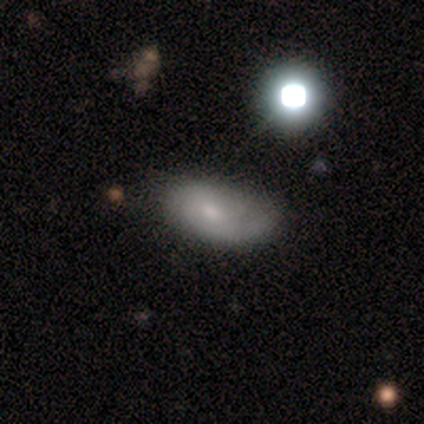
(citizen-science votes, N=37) This is likely a smooth galaxy (62%). How rounded: clearly in between (87%). Merging: marginally minor disturbance (31%).